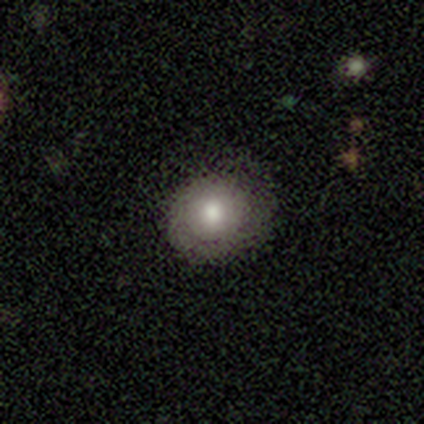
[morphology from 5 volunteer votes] This is clearly a smooth galaxy (100%). How rounded: likely round (60%). Merging: likely none (60%).